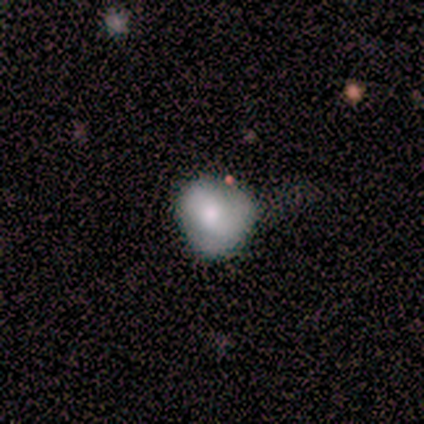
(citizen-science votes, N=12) Smooth or featured? smooth (58%)
How rounded? round (57%)
Merging? minor disturbance (73%)